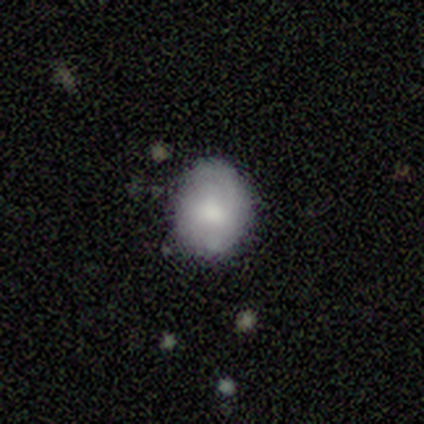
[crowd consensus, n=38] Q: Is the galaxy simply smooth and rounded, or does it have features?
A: smooth — 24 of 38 (63%).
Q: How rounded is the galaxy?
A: in between — 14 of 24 (58%).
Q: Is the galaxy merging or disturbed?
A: none — 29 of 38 (76%).